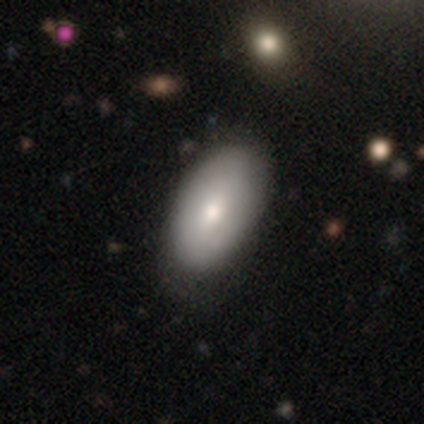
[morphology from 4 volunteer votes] This is likely a smooth galaxy (75%). How rounded: clearly in between (100%). Merging: clearly none (100%).